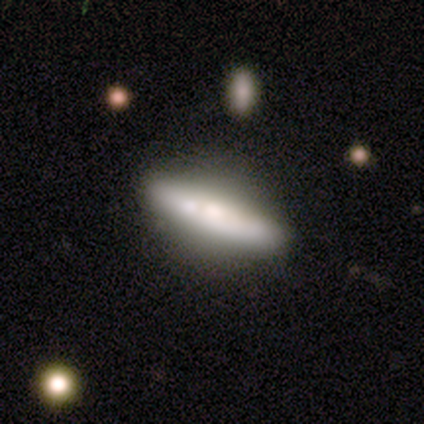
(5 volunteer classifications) smooth-or-featured: featured or disk: 60% | smooth: 40% | star or artifact: 0%
  disk-edge-on: no: 100% | yes: 0%
    bar: strong: 67% | no: 33% | weak: 0%
    has-spiral-arms: no: 100% | yes: 0%
    bulge-size: large: 67% | moderate: 33% | dominant: 0% | small: 0% | none: 0%
  merging: none: 60% | minor disturbance: 20% | major disturbance: 20% | merger: 0%